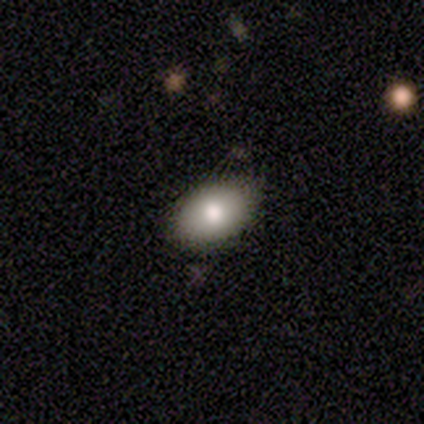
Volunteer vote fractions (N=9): Smooth or featured? 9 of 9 (100%) said smooth. How rounded? 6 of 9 (67%) said in between. Merging? 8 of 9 (89%) said none.